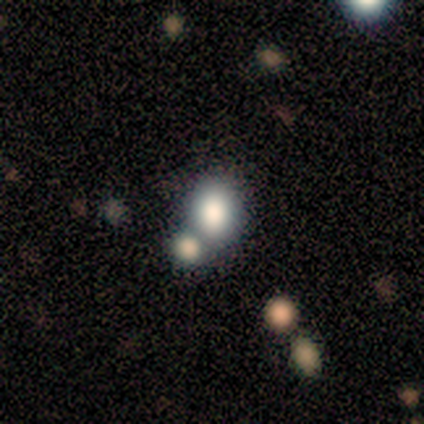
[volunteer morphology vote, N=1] Smooth or featured? featured or disk (100%)
Edge-on disk? no (100%)
Bar? no (100%)
Spiral arms? yes (100%)
Spiral winding? tight (100%)
Spiral arm count? can't tell (100%)
Bulge size? dominant (100%)
Merging? none (100%)